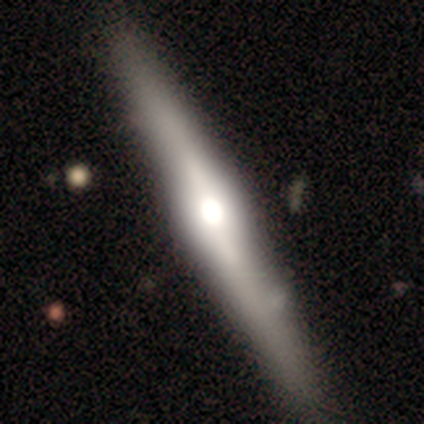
smooth_or_featured: featured or disk (p=1.00)
disk_edge_on: yes (p=1.00)
edge_on_bulge: rounded (p=0.80) [alt: boxy p=0.20]
merging: none (p=0.80) [alt: major disturbance p=0.20]